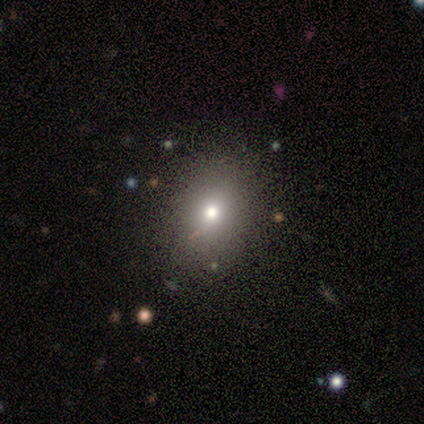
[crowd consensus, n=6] Smooth or featured? 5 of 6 (83%) said smooth. How rounded? 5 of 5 (100%) said in between. Merging? 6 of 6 (100%) said none.